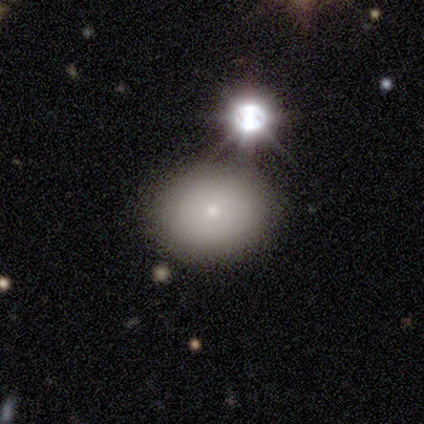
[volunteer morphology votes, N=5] Q: Smooth or featured?
A: smooth (80%); runner-up: featured or disk (20%)
Q: How rounded?
A: round (75%); runner-up: in between (25%)
Q: Merging?
A: none (80%); runner-up: minor disturbance (20%)